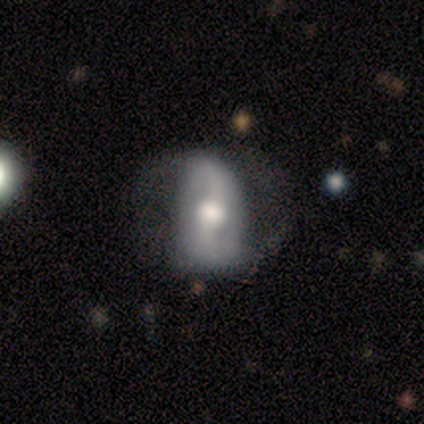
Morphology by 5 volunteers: Smooth or featured? 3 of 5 (60%) said featured or disk. Edge-on disk? 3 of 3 (100%) said no. Bar? 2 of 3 (67%) said no. Spiral arms? 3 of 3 (100%) said yes. Spiral winding? 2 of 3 (67%) said medium. Spiral arm count? 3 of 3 (100%) said 2. Bulge size? 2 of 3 (67%) said moderate. Merging? 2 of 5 (40%) said none.